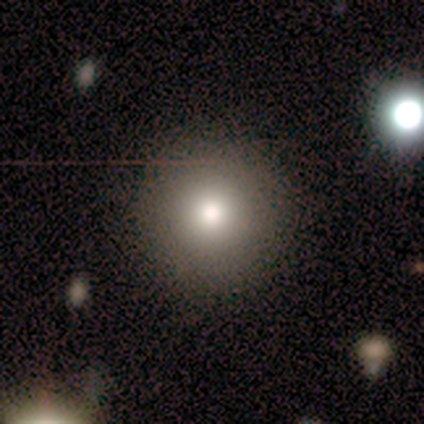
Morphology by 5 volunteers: Smooth or featured? 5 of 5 (100%) said smooth. How rounded? 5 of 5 (100%) said round. Merging? 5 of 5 (100%) said none.